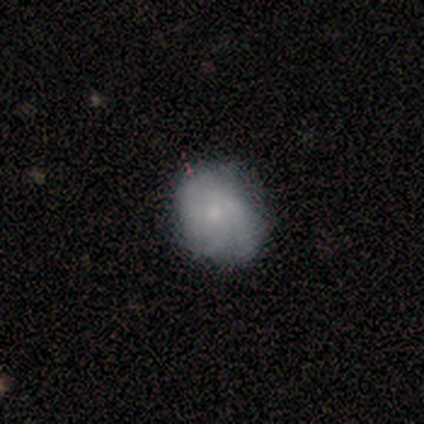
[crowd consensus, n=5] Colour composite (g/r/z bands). It shows a featured or disk galaxy (60%) with no bar (100%), 3 (50%, tied with can't tell) tight (100%) spiral arms (67%) and a small central bulge (67%). Merging: none (60%).